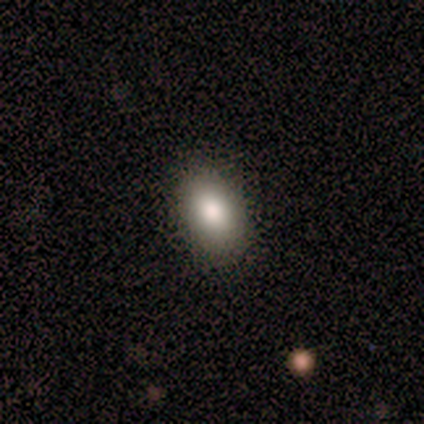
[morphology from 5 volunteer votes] A smooth galaxy with no disk features (80%) that is in between round and cigar-shaped (75%).

Vote fractions:
- Smooth or featured? smooth: 80% / star or artifact: 20% / featured or disk: 0%
- How rounded? in between: 75% / round: 25% / cigar-shaped: 0%
- Merging? none: 100% / minor disturbance: 0% / major disturbance: 0% / merger: 0%